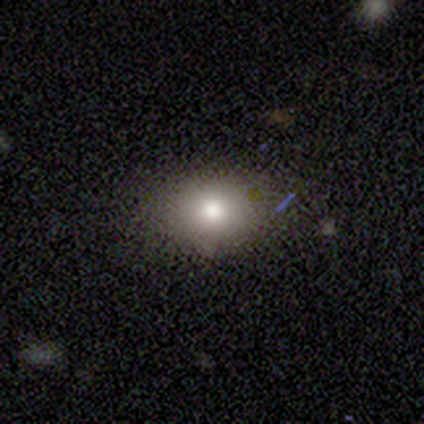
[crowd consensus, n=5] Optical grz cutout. It shows a smooth galaxy with no disk features (80%) that is in between round and cigar-shaped (75%). Merging: none (80%).